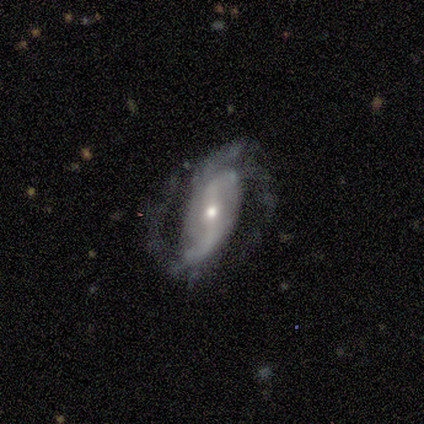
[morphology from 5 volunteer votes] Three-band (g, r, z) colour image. It shows a featured or disk galaxy (100%) with a weak bar (60%), 2 (40%) loose (60%) spiral arms (100%) and a moderate central bulge (60%). Merging: none (40%, tied with minor disturbance).